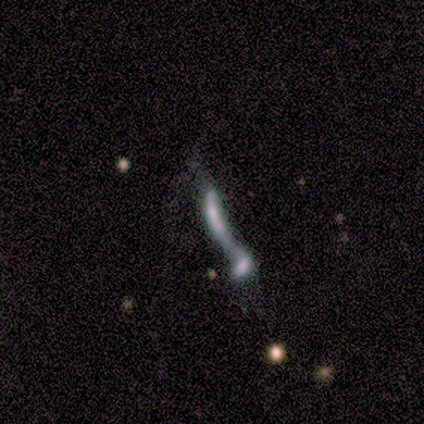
Overall: star or artifact (50%; smooth 25%).